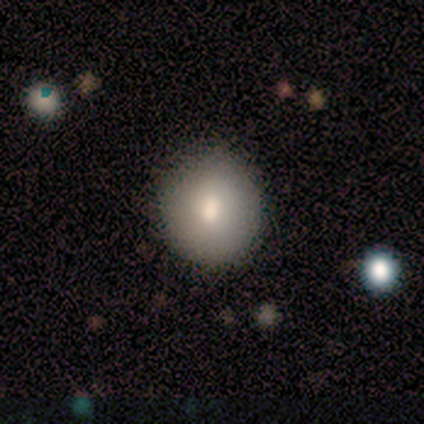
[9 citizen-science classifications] Smooth or featured?
  - smooth: 89% *
  - featured or disk: 11%
  - star or artifact: 0%
How rounded?
  - round: 88% *
  - in between: 12%
  - cigar-shaped: 0%
Merging?
  - none: 89% *
  - major disturbance: 11%
  - minor disturbance: 0%
  - merger: 0%